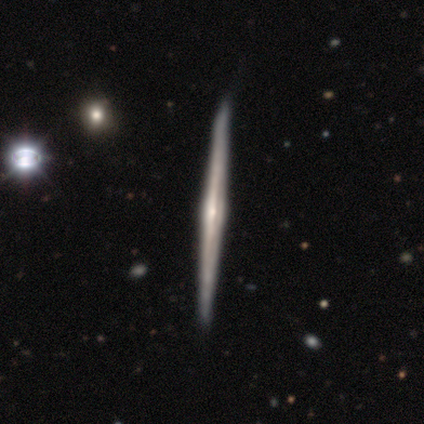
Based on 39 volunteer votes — A featured or disk galaxy (90%) viewed edge-on (100%) with a rounded central bulge (77%).

Vote fractions:
- Smooth or featured? featured or disk: 90% / smooth: 8% / star or artifact: 3%
- Edge-on disk? yes: 100% / no: 0%
- Edge-on bulge? rounded: 77% / none: 14% / boxy: 9%
- Merging? none: 66% / minor disturbance: 8% / major disturbance: 0% / merger: 0%